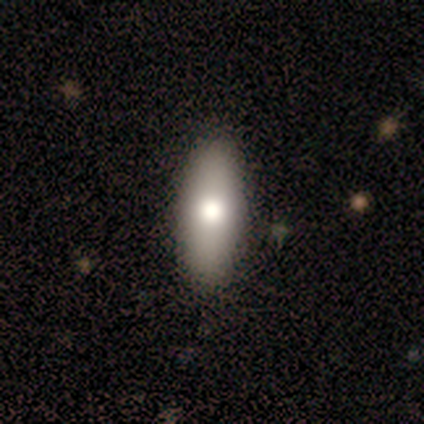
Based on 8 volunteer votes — smooth_or_featured: smooth (p=0.62) [alt: featured or disk p=0.38]
how_rounded: in between (p=0.80) [alt: cigar-shaped p=0.20]
merging: none (p=1.00)